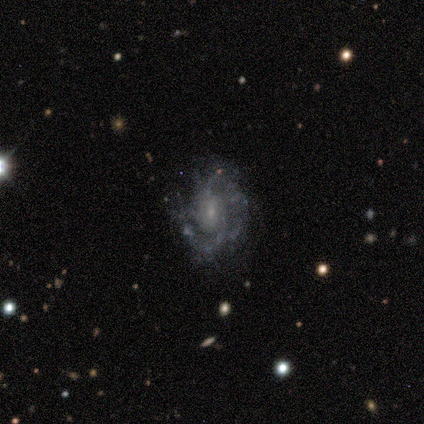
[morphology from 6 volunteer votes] Q: Smooth or featured?
A: featured or disk (83%); runner-up: smooth (17%)
Q: Edge-on disk?
A: no (100%)
Q: Bar?
A: no (60%); runner-up: strong (20%)
Q: Spiral arms?
A: yes (80%); runner-up: no (20%)
Q: Spiral winding?
A: tight (75%); runner-up: medium (25%)
Q: Spiral arm count?
A: 2 (50%); runner-up: 3 (25%)
Q: Bulge size?
A: small (100%)
Q: Merging?
A: none (50%); tied with: minor disturbance (50%)